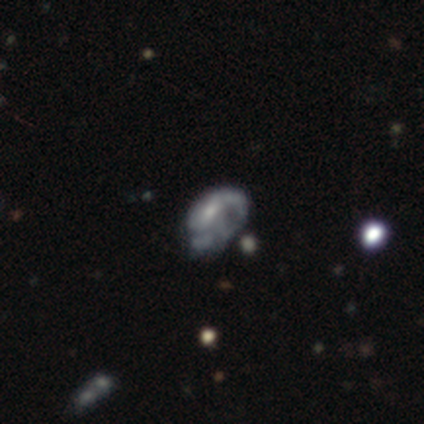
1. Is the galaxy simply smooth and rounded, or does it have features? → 40% smooth (tied), 40% featured or disk (tied), 20% star or artifact.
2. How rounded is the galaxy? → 100% in between, 0% round, 0% cigar-shaped.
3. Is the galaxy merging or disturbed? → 25% none (tied), 25% minor disturbance (tied), 25% major disturbance (tied), 25% merger (tied).